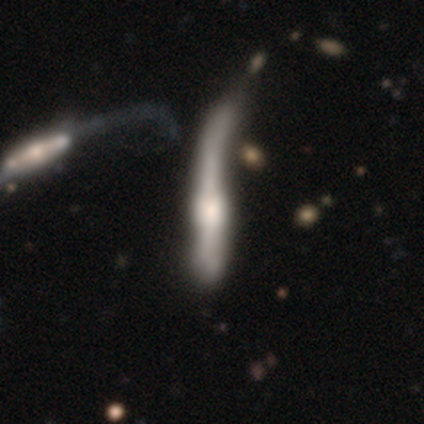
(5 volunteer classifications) featured or disk 60%, smooth 40%, star or artifact 0%. Down the decision tree: edge-on disk — yes (67%); edge-on bulge — rounded (100%); merging — major disturbance (60%).